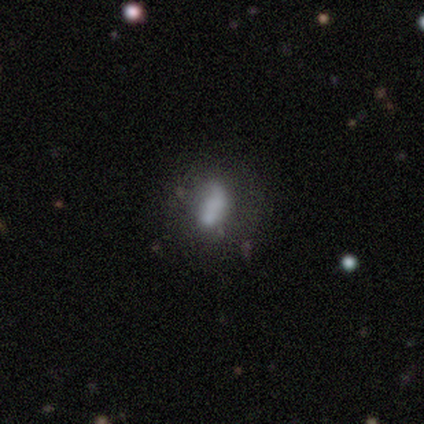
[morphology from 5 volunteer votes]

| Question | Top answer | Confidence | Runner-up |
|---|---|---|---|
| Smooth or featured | smooth | 80% | featured or disk (20%) |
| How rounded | round | 50% | tied: in between (50%) |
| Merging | major disturbance | 80% | minor disturbance (20%) |